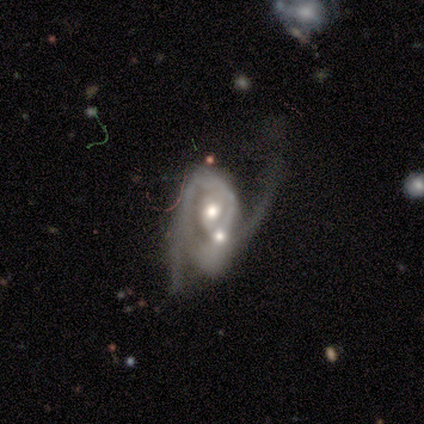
Overall: featured or disk (100%). Edge-on disk: no (100%). Bar: weak (50%, tied with no). Spiral arms: yes (50%, tied with no). Spiral arm count: 2 (100%). Spiral winding: medium (50%, tied with loose). Bulge size: moderate (75%). Merging: major disturbance (50%, tied with merger).